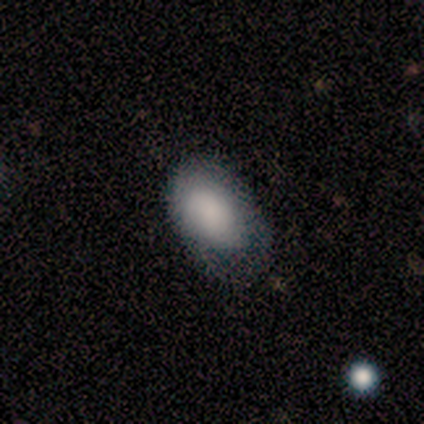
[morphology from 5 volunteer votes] Overall: smooth (80%). How rounded: in between (100%). Merging: minor disturbance (40%, tied with major disturbance).